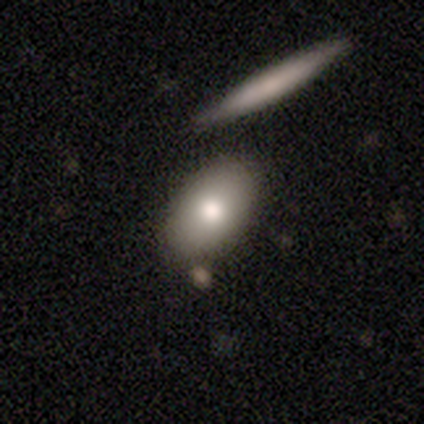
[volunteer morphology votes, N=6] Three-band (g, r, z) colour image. It shows a smooth galaxy with no disk features (50%, tied with featured or disk) that is in between round and cigar-shaped (100%). Merging: none (100%).